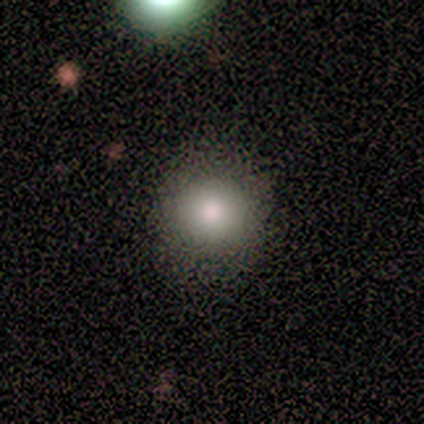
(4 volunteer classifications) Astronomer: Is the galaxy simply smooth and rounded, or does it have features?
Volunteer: smooth — 75%.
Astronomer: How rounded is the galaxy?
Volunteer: round — 67%.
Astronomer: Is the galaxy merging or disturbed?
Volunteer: none — 75%.